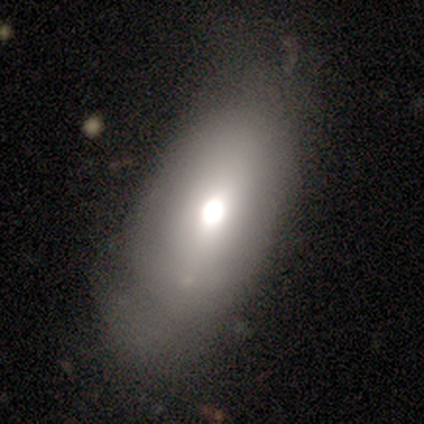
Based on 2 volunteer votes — Q: Smooth or featured?
A: smooth (50%); tied with: star or artifact (50%)
Q: How rounded?
A: in between (100%)
Q: Merging?
A: none (100%)